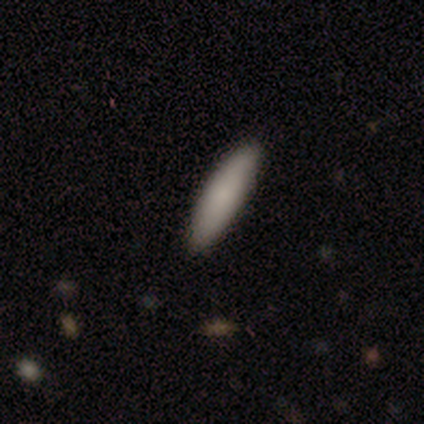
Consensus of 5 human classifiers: Smooth or featured? 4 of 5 (80%) said smooth. How rounded? 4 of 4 (100%) said cigar-shaped. Merging? 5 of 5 (100%) said none.